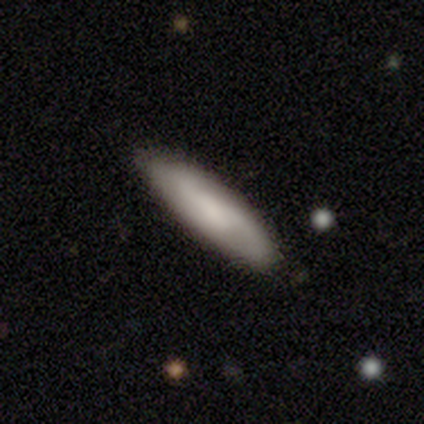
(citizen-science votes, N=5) Volunteers were most divided on "merging" (2-way tie): none: 50%, minor disturbance: 50%, major disturbance: 0%, merger: 0%. More confident: how rounded — cigar-shaped (67%); smooth or featured — smooth (60%).